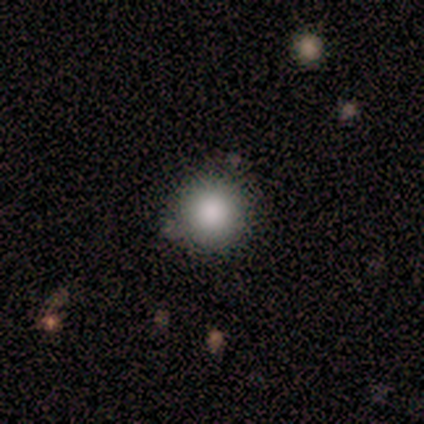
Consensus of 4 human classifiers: smooth-or-featured: smooth: 75% | star or artifact: 25% | featured or disk: 0%
  how-rounded: round: 100% | in between: 0% | cigar-shaped: 0%
  merging: none: 100% | minor disturbance: 0% | major disturbance: 0% | merger: 0%